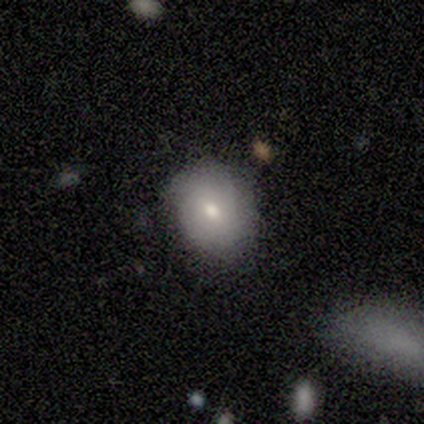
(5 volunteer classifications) smooth-or-featured: smooth: 80% | featured or disk: 20% | star or artifact: 0%
  how-rounded: round: 75% | in between: 25% | cigar-shaped: 0%
  merging: none: 100% | minor disturbance: 0% | major disturbance: 0% | merger: 0%